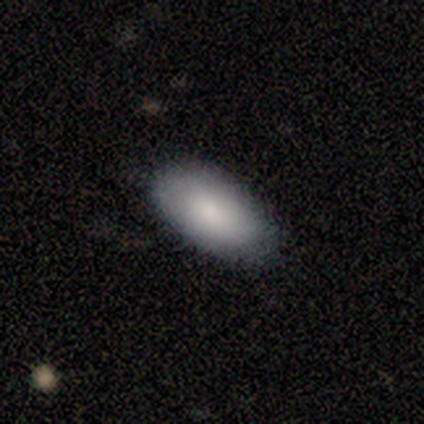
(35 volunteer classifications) Smooth or featured: smooth — 80% (star or artifact — 14%)
How rounded: in between — 93% (round — 4%)
Merging: none — 77% (minor disturbance — 20%)